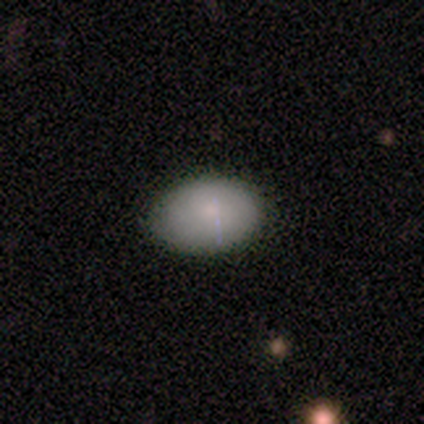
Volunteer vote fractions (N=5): A smooth galaxy with no disk features (100%) that is in between round and cigar-shaped (100%).

Vote fractions:
- Smooth or featured? smooth: 100% / featured or disk: 0% / star or artifact: 0%
- How rounded? in between: 100% / round: 0% / cigar-shaped: 0%
- Merging? none: 100% / minor disturbance: 0% / major disturbance: 0% / merger: 0%